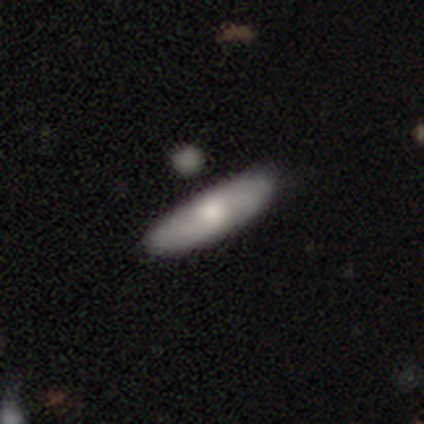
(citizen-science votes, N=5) smooth-or-featured: smooth: 40% (tied) | featured or disk: 40% (tied) | star or artifact: 20%
  how-rounded: in between: 50% (tied) | cigar-shaped: 50% (tied) | round: 0%
  merging: none: 75% | minor disturbance: 25% | major disturbance: 0% | merger: 0%